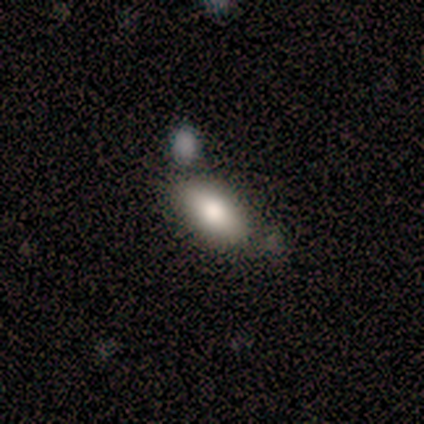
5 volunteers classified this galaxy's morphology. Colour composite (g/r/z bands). It shows a smooth galaxy with no disk features (100%) that is in between round and cigar-shaped (100%). Merging: none (60%).